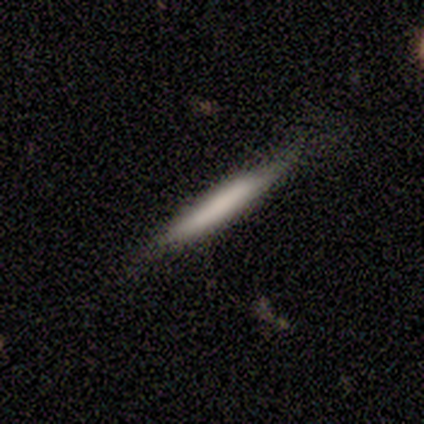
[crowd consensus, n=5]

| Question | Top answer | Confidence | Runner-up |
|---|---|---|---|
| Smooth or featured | smooth | 80% | featured or disk (20%) |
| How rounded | cigar-shaped | 100% | — |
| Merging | none | 100% | — |